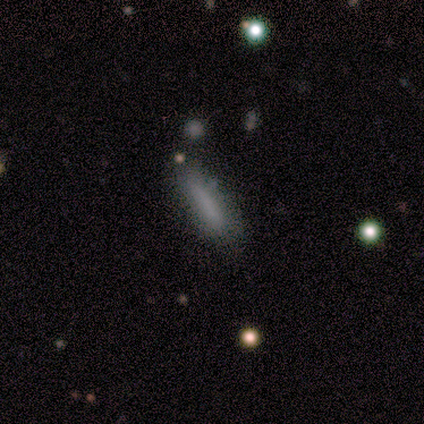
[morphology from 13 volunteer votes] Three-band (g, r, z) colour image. It shows a smooth galaxy with no disk features (85%) that is cigar-shaped (73%). Merging: none (77%).